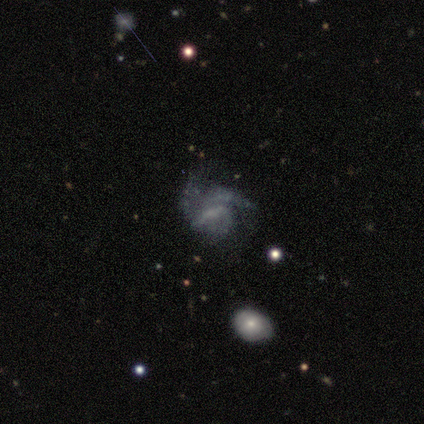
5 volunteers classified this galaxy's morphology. Volunteers were most divided on "bar" (2-way tie): strong: 40%, weak: 40%, no: 20%; "bulge size" (2-way tie): small: 40%, none: 40%, moderate: 20%, dominant: 0%, large: 0%. More confident: smooth or featured — featured or disk (100%); edge-on disk — no (100%); spiral winding — tight (67%); spiral arm count — can't tell (67%); spiral arms — yes (60%); merging — none (60%).